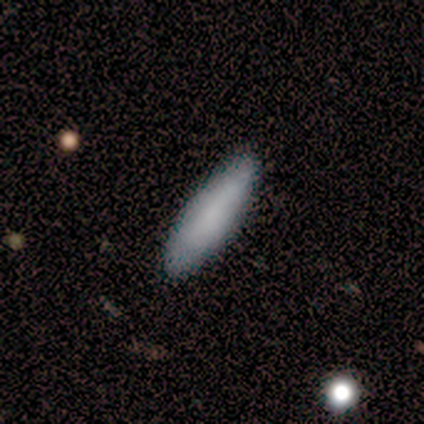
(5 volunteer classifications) Q: Smooth or featured?
A: smooth (80%); runner-up: featured or disk (20%)
Q: How rounded?
A: cigar-shaped (75%); runner-up: in between (25%)
Q: Merging?
A: none (100%)